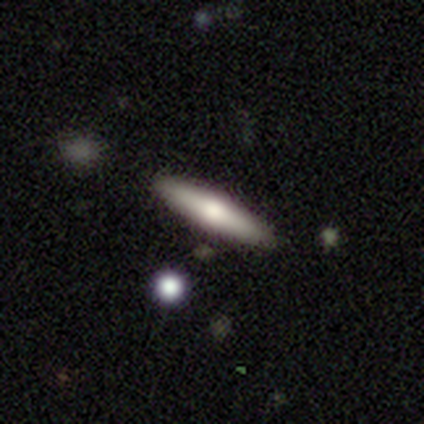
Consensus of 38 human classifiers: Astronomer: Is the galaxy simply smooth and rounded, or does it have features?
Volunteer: smooth — 58% (runner-up: featured or disk, 37%).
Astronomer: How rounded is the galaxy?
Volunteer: cigar-shaped — 100%.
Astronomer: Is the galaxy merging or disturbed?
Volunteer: none — 94%.